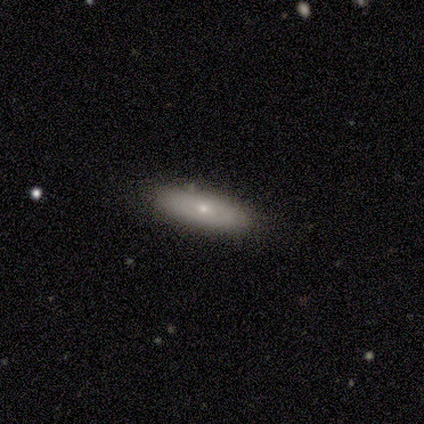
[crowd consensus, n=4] This is likely a smooth galaxy (75%). How rounded: likely in between (67%). Merging: likely none (75%).